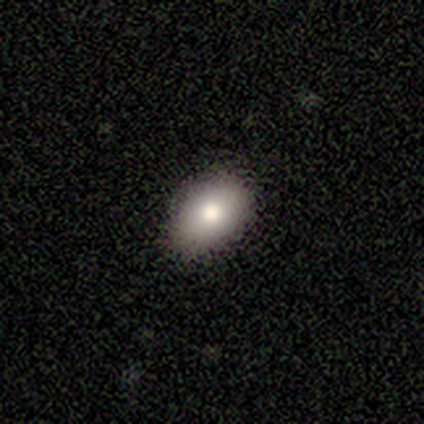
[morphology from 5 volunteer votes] This appears to be a smooth galaxy with no disk features (100%) that is in between round and cigar-shaped (100%). Merging: none (100%).